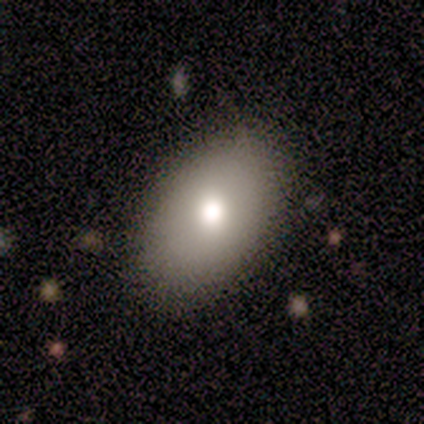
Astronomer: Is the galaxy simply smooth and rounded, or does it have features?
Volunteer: smooth — 100%.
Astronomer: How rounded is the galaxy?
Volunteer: round — 50%, tied with in between at 50%.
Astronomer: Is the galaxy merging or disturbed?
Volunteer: none — 100%.